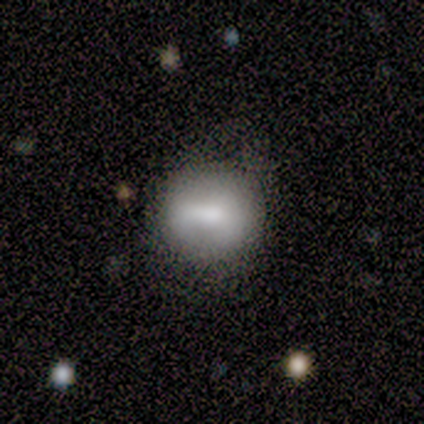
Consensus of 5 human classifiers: This is likely a smooth galaxy (60%). How rounded: clearly round (100%). Merging: likely none (75%).